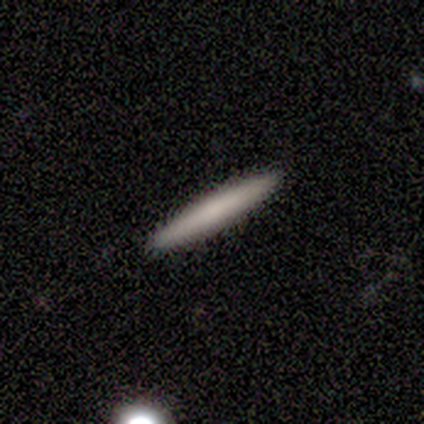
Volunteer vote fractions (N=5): Smooth or featured? 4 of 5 (80%) said smooth. How rounded? 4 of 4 (100%) said cigar-shaped. Merging? 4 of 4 (100%) said none.